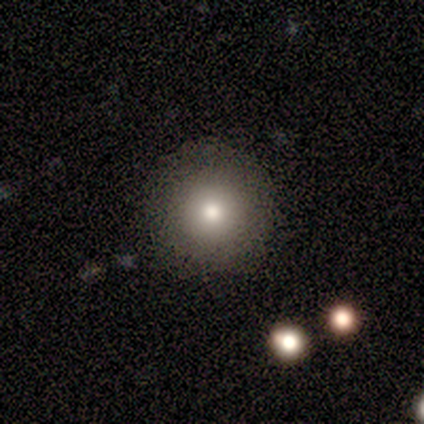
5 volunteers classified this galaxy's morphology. Smooth or featured: smooth — 80% (star or artifact — 20%)
How rounded: round — 100%
Merging: none — 100%